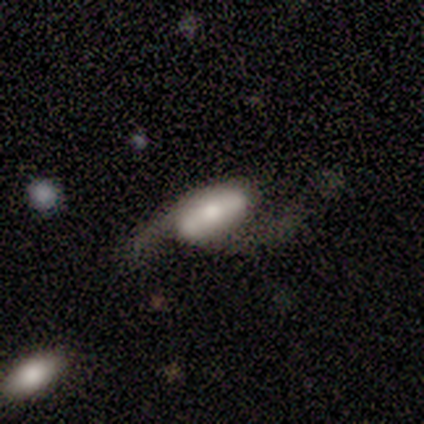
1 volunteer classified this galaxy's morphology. Q: Smooth or featured?
A: featured or disk (100%)
Q: Edge-on disk?
A: no (100%)
Q: Bar?
A: strong (100%)
Q: Spiral arms?
A: yes (100%)
Q: Spiral winding?
A: loose (100%)
Q: Spiral arm count?
A: 2 (100%)
Q: Bulge size?
A: moderate (100%)
Q: Merging?
A: none (100%)